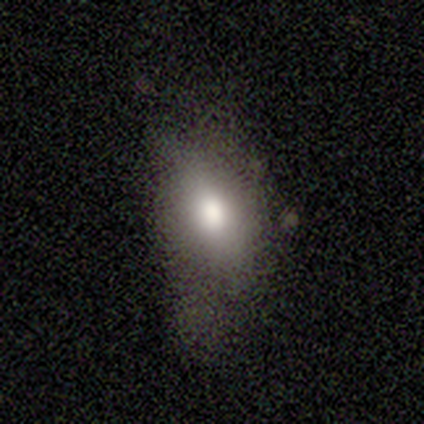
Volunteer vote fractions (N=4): Overall: smooth (75%). How rounded: in between (100%). Merging: minor disturbance (67%; none 33%).